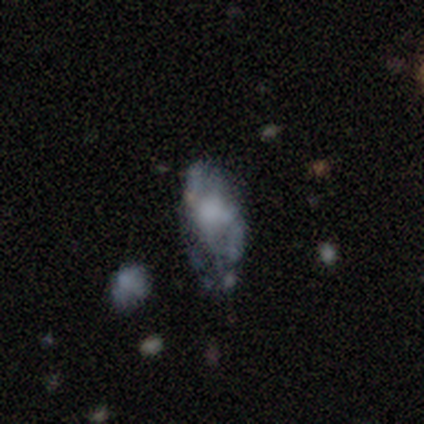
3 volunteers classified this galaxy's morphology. A featured or disk galaxy (67%) with a weak bar (50%, tied with no), 2 (100%) loose (100%) spiral arms (50%, tied with no) and a large central bulge (50%, tied with none). Merging: minor disturbance (100%).